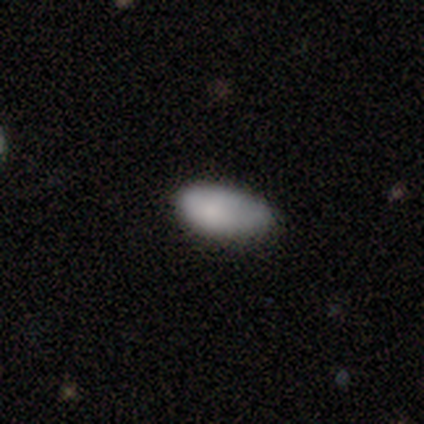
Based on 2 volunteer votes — Smooth or featured?
  - smooth: 100% *
  - featured or disk: 0%
  - star or artifact: 0%
How rounded?
  - in between: 100% *
  - round: 0%
  - cigar-shaped: 0%
Merging?
  - none: 50% * (tied)
  - minor disturbance: 50% * (tied)
  - major disturbance: 0%
  - merger: 0%